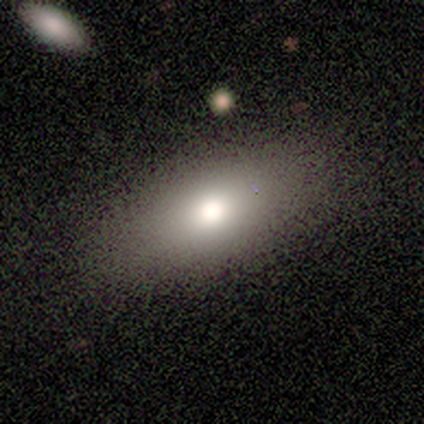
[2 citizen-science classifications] Morphology: type=smooth (100%); roundness=in between (100%); merging=none (100%).